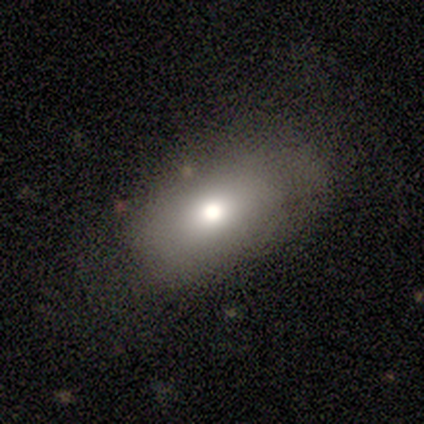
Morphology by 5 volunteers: smooth 80%, featured or disk 20%, star or artifact 0%. Down the decision tree: how rounded — in between (100%); merging — none (100%).